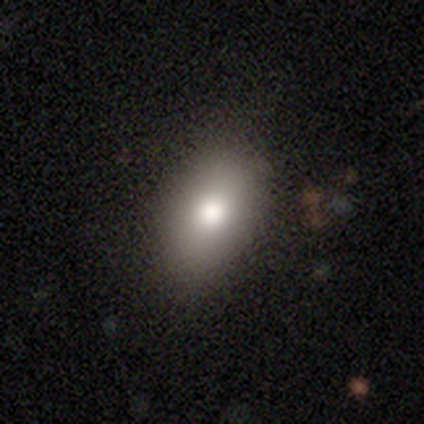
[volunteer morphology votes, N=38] Smooth or featured? 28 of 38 (74%) said smooth. How rounded? 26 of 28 (93%) said in between. Merging? 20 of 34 (59%) said none.